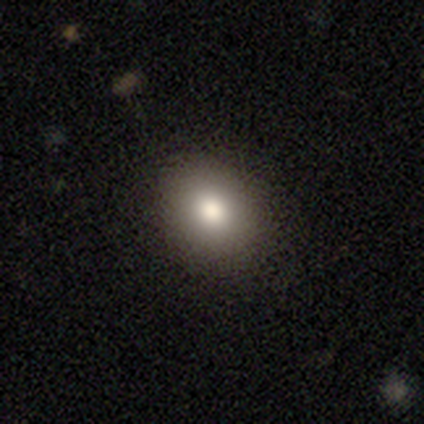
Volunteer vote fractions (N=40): Morphology: type=smooth (85%); roundness=in between (56%); merging=none (92%).